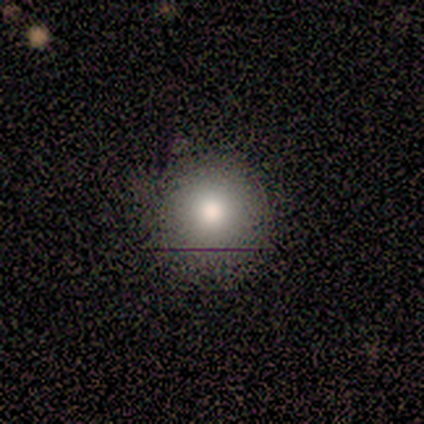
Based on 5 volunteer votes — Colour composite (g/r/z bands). It shows a smooth galaxy with no disk features (60%) that is round (67%). Merging: none (67%).